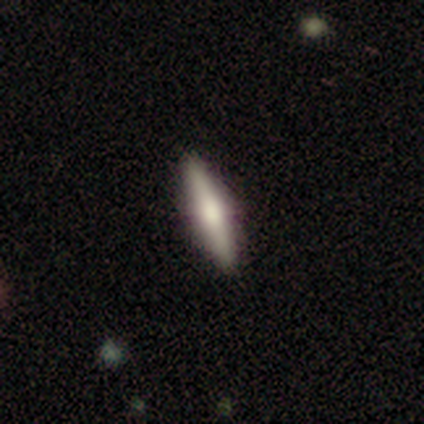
smooth-or-featured: smooth: 48% (tied) | featured or disk: 48% (tied) | star or artifact: 5%
  how-rounded: cigar-shaped: 89% | in between: 11% | round: 0%
  merging: none: 87% | minor disturbance: 13% | major disturbance: 0% | merger: 0%